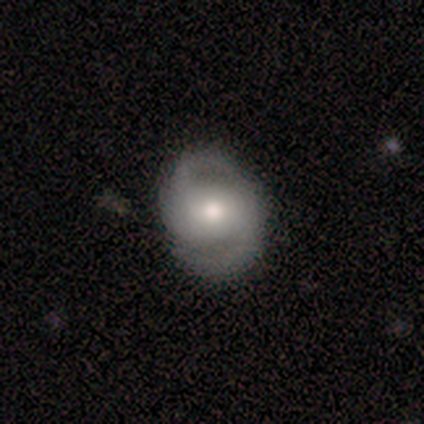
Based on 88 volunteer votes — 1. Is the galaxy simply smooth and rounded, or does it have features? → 78% featured or disk, 15% smooth, 7% star or artifact.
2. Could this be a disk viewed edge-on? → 97% no, 3% yes.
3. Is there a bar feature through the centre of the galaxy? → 51% no, 36% weak, 13% strong.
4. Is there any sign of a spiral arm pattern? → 97% yes, 3% no.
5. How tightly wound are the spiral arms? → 43% medium, 37% tight, 20% loose.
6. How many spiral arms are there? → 92% 2, 6% can't tell, 2% 3, 0% 1, 0% 4, 0% more than 4.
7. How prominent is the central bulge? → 61% moderate, 18% small, 16% large, 3% none, 1% dominant.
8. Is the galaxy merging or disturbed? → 85% none, 7% minor disturbance, 4% major disturbance, 4% merger.